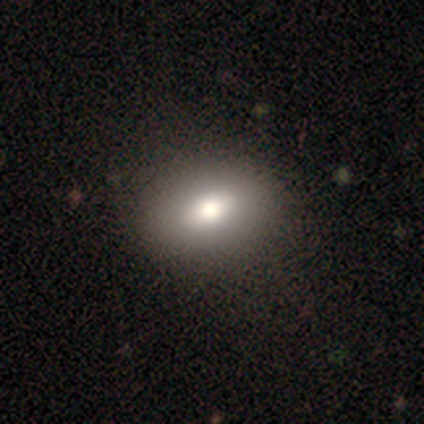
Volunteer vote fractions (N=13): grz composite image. It shows a smooth galaxy with no disk features (92%) that is round (50%, tied with in between). Merging: none (92%).